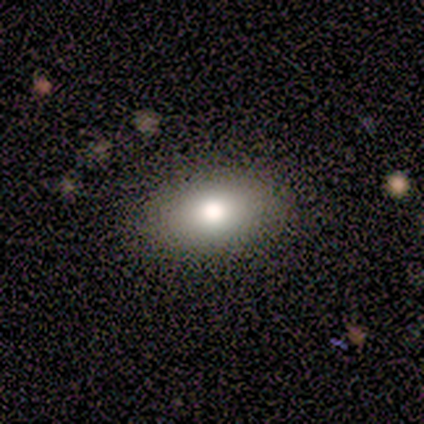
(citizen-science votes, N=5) Smooth or featured?
  - smooth: 80% *
  - featured or disk: 20%
  - star or artifact: 0%
How rounded?
  - in between: 100% *
  - round: 0%
  - cigar-shaped: 0%
Merging?
  - none: 80% *
  - minor disturbance: 20%
  - major disturbance: 0%
  - merger: 0%